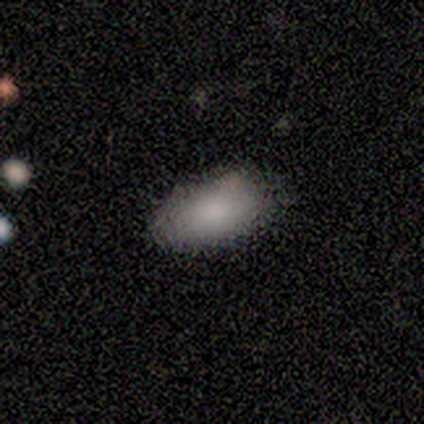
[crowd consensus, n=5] smooth_or_featured: smooth (p=0.60) [alt: star or artifact p=0.40]
how_rounded: in between (p=1.00)
merging: none (p=1.00)